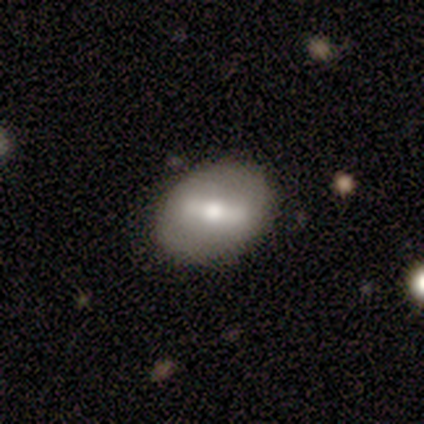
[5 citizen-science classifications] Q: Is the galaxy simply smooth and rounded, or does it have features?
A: smooth — 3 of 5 (60%).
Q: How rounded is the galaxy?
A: in between — 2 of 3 (67%).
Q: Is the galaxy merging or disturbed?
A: none — 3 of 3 (100%).